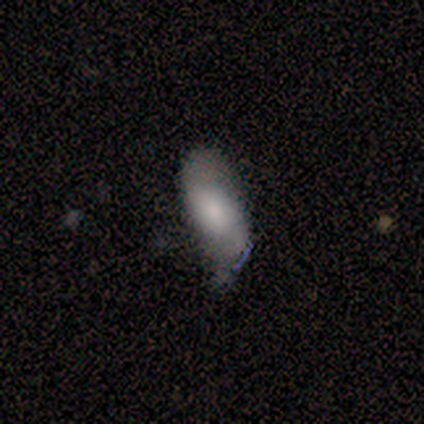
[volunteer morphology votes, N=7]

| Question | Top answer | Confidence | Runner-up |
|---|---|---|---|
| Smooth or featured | smooth | 57% | featured or disk (43%) |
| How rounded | in between | 75% | round (25%) |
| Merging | none | 57% | minor disturbance (43%) |